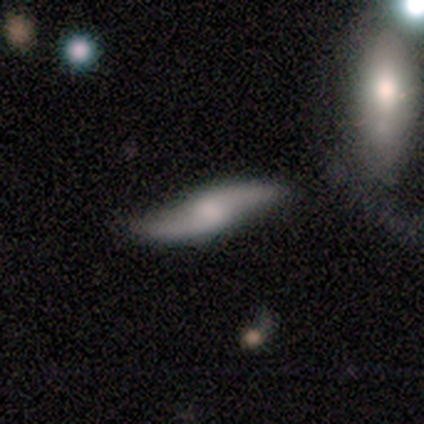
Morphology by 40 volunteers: Smooth or featured? 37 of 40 (92%) said featured or disk. Edge-on disk? 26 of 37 (70%) said no. Bar? 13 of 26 (50%) said weak. Spiral arms? 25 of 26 (96%) said yes. Spiral winding? 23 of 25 (92%) said loose. Spiral arm count? 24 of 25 (96%) said 2. Bulge size? 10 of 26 (38%, tied with none) said moderate. Merging? 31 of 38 (82%) said none.